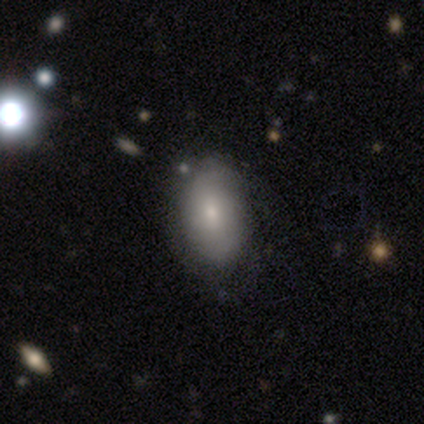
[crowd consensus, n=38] This is likely a smooth galaxy (76%). How rounded: clearly in between (97%). Merging: possibly none (49%).